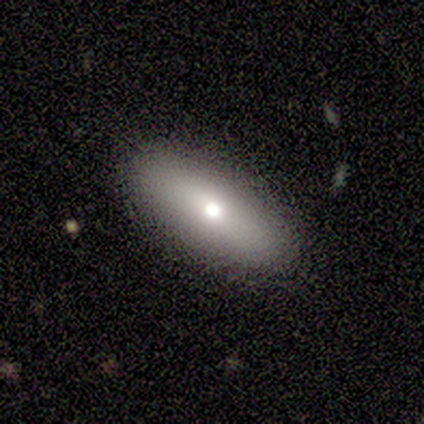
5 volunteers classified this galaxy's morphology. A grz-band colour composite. It shows a smooth galaxy with no disk features (100%) that is in between round and cigar-shaped (100%). Merging: none (80%).